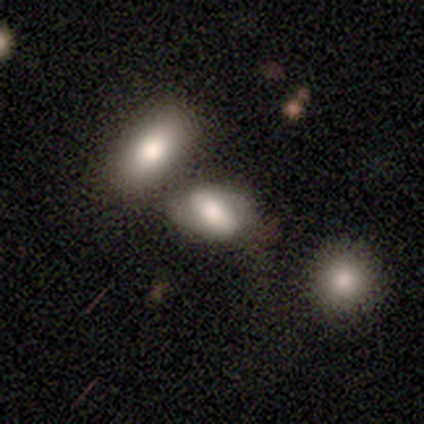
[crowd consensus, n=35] Morphology: type=smooth (54%); roundness=in between (84%); merging=none (35%).